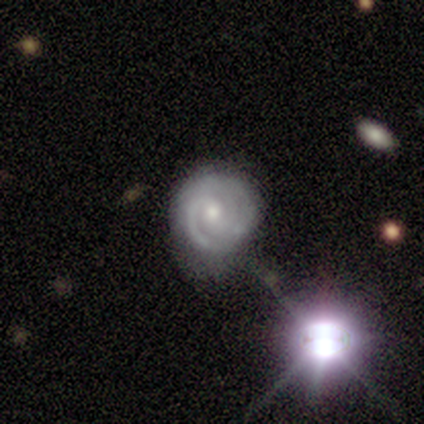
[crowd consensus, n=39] Volunteers were most divided on "bar": no: 55%, weak: 41%, strong: 3%. More confident: spiral arms — yes (100%); edge-on disk — no (97%); spiral winding — tight (79%); smooth or featured — featured or disk (77%); bulge size — moderate (69%); merging — none (67%); spiral arm count — 2 (52%).